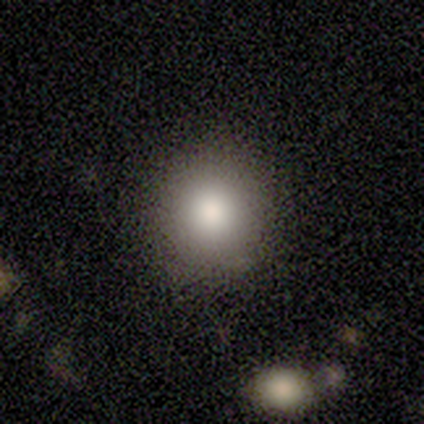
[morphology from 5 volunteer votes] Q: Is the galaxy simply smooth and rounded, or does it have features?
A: smooth — 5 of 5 (100%).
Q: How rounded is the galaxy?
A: round — 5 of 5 (100%).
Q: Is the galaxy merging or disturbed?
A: none — 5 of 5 (100%).